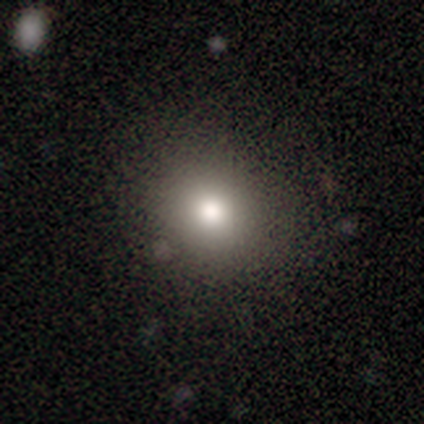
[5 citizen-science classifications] Morphology: type=smooth (60%); roundness=in between (67%); merging=none (75%).